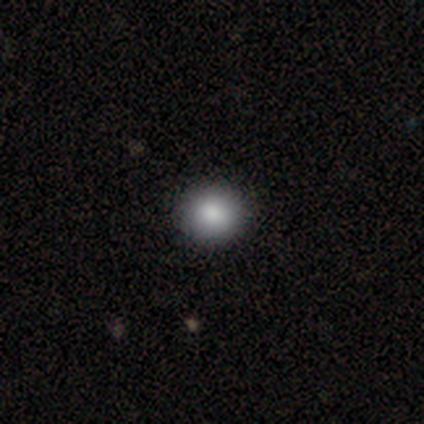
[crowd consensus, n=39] Morphology: type=smooth (79%); roundness=round (97%); merging=none (94%).